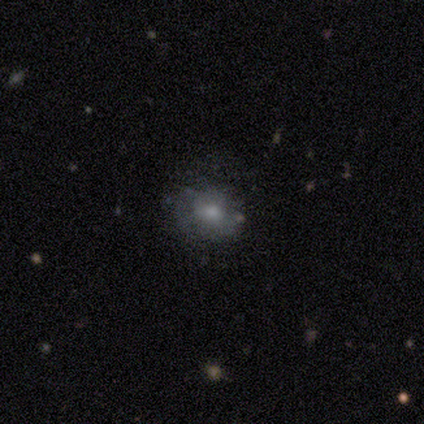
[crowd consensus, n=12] Volunteers were most divided on "smooth or featured": smooth: 50%, star or artifact: 33%, featured or disk: 17%. More confident: merging — none (75%); how rounded — round (67%).